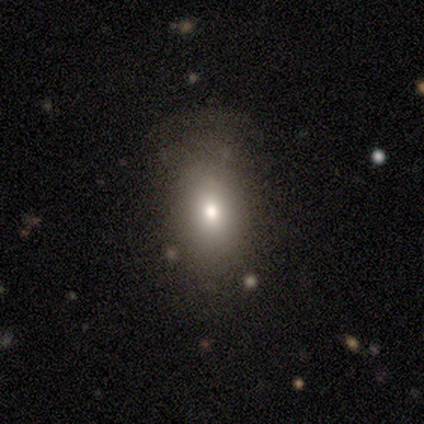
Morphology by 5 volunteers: Volunteers were most divided on "smooth or featured" (2-way tie): smooth: 40%, featured or disk: 40%, star or artifact: 20%. More confident: how rounded — in between (100%); merging — major disturbance (50%).